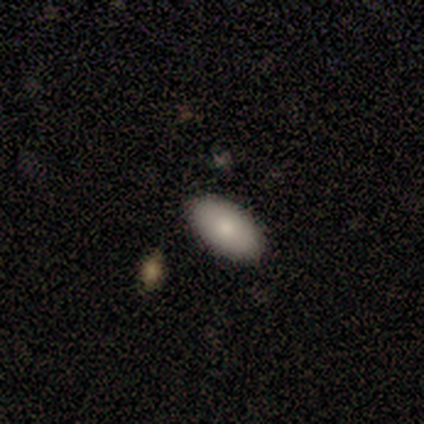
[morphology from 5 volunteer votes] type=smooth (100%); roundness=in between (100%); merging=none (100%).